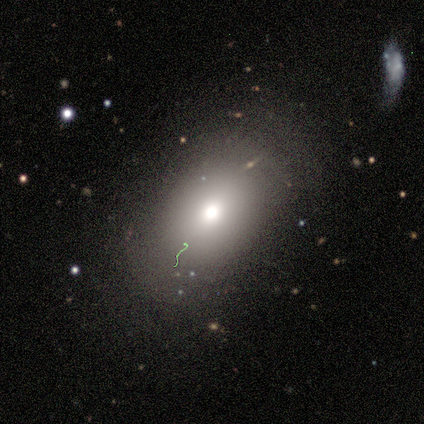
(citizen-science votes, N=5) Smooth or featured: smooth — 100%
How rounded: in between — 100%
Merging: none — 80% (minor disturbance — 20%)